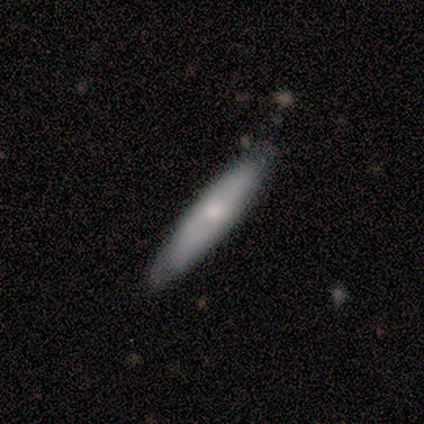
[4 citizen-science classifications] This appears to be a featured or disk galaxy (50%) with no bar (100%), tight (50%, tied with loose) spiral arms (100%) and a dominant central bulge (50%, tied with small). Merging: none (100%).